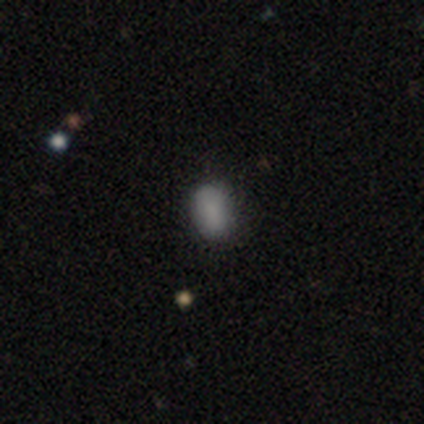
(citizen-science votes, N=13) This is likely a smooth galaxy (77%). How rounded: clearly in between (100%). Merging: clearly none (91%).